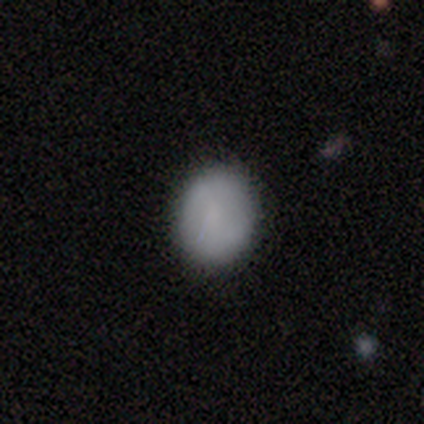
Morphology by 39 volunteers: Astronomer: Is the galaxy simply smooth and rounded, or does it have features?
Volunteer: smooth — 82%.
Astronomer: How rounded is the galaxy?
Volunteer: round — 50%, tied with in between at 50%.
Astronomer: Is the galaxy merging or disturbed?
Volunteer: none — 84%.